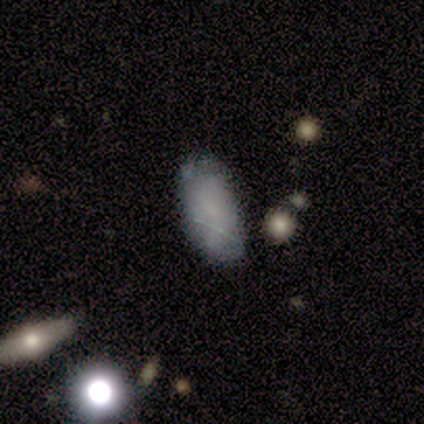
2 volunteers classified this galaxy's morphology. This appears to be a featured or disk galaxy (50%, tied with star or artifact) with a strong bar (100%), no spiral arms (100%) and a moderate central bulge (100%). Merging: minor disturbance (100%).